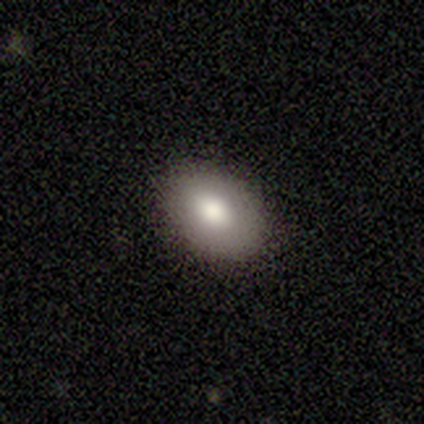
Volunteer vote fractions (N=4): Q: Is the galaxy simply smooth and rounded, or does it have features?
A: smooth — 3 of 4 (75%).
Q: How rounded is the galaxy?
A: in between — 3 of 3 (100%).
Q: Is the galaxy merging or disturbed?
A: none — 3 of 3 (100%).